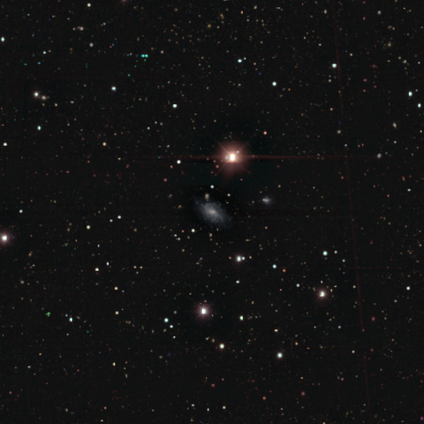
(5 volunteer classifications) Volunteers were most divided on "smooth or featured": star or artifact: 60%, featured or disk: 40%, smooth: 0%.